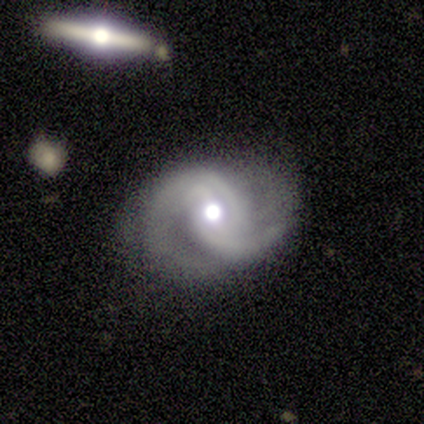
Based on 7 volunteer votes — Volunteers were most divided on "bar": no: 57%, weak: 29%, strong: 14%. More confident: smooth or featured — featured or disk (100%); edge-on disk — no (100%); spiral arms — yes (100%); merging — none (100%); spiral arm count — 2 (86%); spiral winding — loose (57%); bulge size — large (57%).